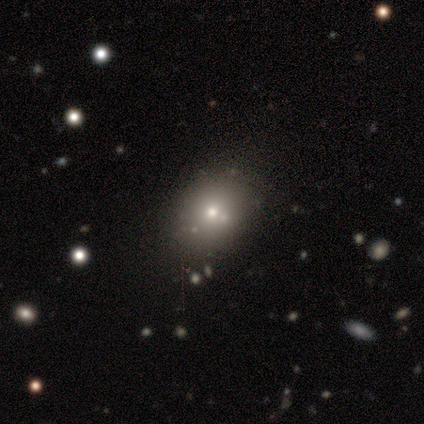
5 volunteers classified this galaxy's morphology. star or artifact 60%, smooth 40%, featured or disk 0%.